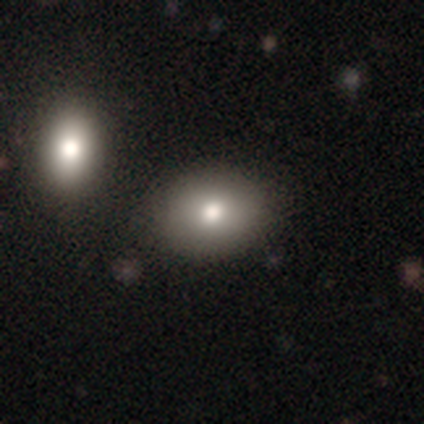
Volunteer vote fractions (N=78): A smooth galaxy with no disk features (82%) that is in between round and cigar-shaped (64%).

Vote fractions:
- Smooth or featured? smooth: 82% / featured or disk: 9% / star or artifact: 9%
- How rounded? in between: 64% / round: 36% / cigar-shaped: 0%
- Merging? none: 41% / merger: 24% / minor disturbance: 8% / major disturbance: 1%